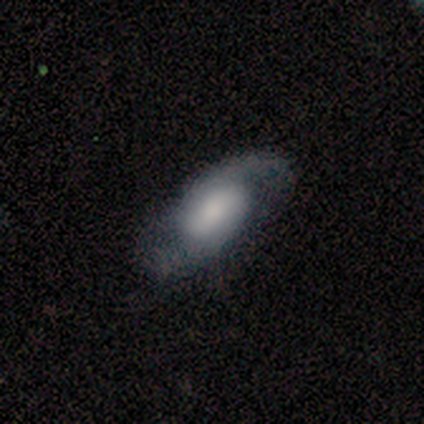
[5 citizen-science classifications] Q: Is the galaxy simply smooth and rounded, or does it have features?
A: featured or disk — 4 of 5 (80%).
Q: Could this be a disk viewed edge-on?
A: no — 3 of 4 (75%).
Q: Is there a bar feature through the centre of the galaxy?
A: weak — 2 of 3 (67%).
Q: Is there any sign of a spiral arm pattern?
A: yes — 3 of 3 (100%).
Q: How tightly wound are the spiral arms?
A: loose — 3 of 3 (100%).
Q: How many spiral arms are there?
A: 2 — 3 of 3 (100%).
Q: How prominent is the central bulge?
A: moderate — 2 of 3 (67%).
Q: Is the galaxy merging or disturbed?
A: none — 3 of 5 (60%).